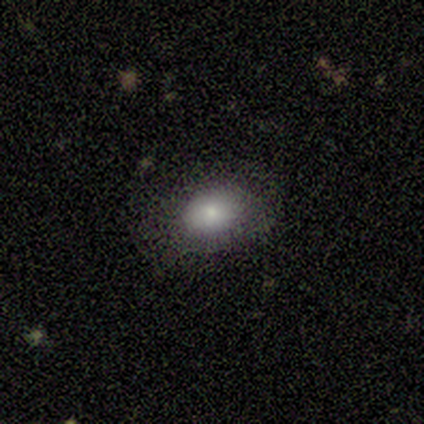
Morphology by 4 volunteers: smooth 75%, featured or disk 25%, star or artifact 0%. Down the decision tree: how rounded — in between (100%); merging — none (100%).